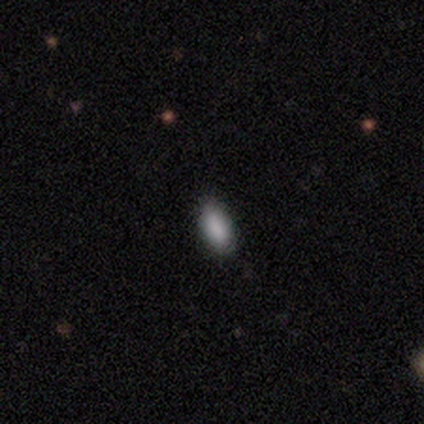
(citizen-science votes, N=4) A smooth galaxy with no disk features (75%) that is in between round and cigar-shaped (100%). Merging: none (100%).